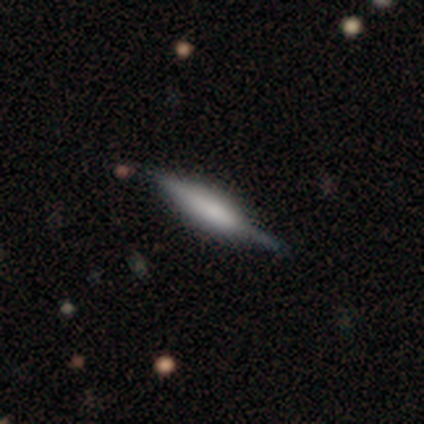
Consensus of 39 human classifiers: Smooth or featured? featured or disk (59%)
Edge-on disk? yes (96%)
Edge-on bulge? rounded (55%)
Merging? none (73%)